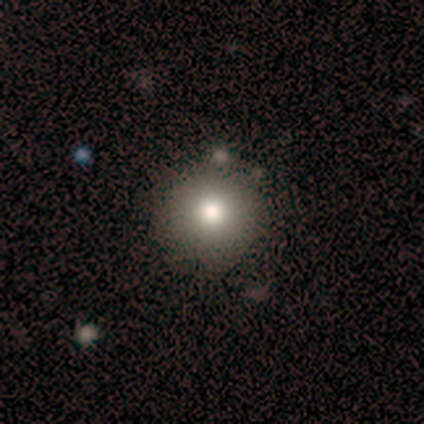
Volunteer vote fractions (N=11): Q: Smooth or featured?
A: smooth (82%); runner-up: featured or disk (18%)
Q: How rounded?
A: round (100%)
Q: Merging?
A: none (91%); runner-up: minor disturbance (9%)